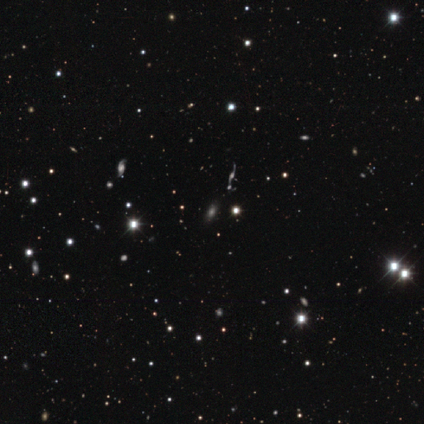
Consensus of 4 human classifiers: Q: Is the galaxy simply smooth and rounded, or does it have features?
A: featured or disk — 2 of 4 (50%).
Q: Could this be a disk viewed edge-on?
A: yes — 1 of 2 (50%, tied with no).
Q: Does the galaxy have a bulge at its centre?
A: boxy — 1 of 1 (100%).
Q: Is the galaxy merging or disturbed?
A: none — 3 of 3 (100%).